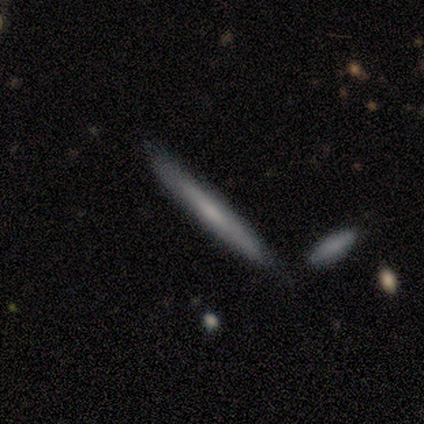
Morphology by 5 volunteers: Q: Smooth or featured?
A: smooth (100%)
Q: How rounded?
A: cigar-shaped (100%)
Q: Merging?
A: none (100%)